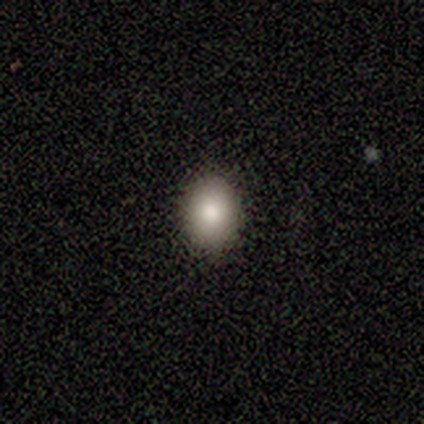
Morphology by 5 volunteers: smooth 80%, featured or disk 20%, star or artifact 0%. Down the decision tree: how rounded — in between (100%); merging — none (100%).